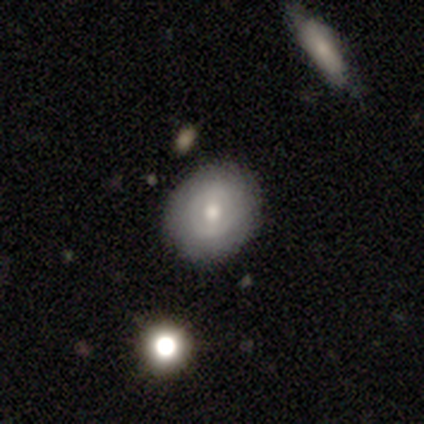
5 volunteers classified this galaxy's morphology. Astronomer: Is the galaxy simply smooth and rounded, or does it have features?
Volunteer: smooth — 60%.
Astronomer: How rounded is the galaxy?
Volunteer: round — 67%.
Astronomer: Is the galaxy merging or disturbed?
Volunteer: none — 100%.